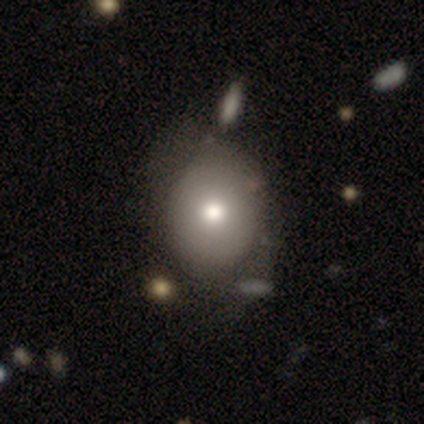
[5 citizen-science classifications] This appears to be a smooth galaxy with no disk features (80%) that is round (50%, tied with in between). Merging: none (80%).